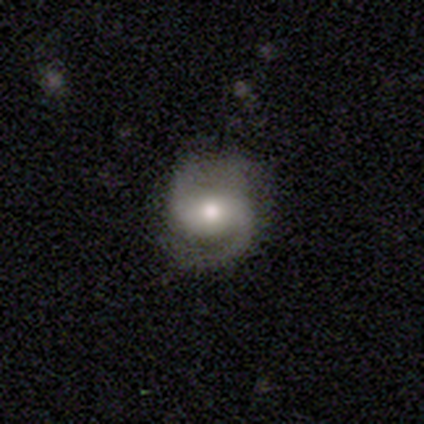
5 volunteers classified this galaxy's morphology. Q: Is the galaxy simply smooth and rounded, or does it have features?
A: featured or disk — 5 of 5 (100%).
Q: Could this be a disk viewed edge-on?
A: no — 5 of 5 (100%).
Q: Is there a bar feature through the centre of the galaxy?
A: weak — 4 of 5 (80%).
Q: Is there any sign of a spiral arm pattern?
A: yes — 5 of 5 (100%).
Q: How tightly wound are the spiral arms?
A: medium — 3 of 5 (60%).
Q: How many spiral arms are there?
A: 2 — 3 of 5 (60%).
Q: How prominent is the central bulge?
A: moderate — 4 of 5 (80%).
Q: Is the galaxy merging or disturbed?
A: none — 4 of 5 (80%).